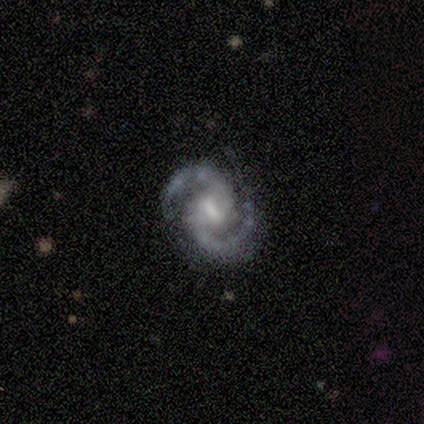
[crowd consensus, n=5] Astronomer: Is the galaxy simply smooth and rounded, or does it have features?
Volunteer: featured or disk — 100%.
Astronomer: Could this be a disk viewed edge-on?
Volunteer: no — 80%.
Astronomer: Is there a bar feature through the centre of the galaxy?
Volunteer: strong — 50%, tied with weak at 50%.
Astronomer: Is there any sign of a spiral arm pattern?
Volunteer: yes — 75%.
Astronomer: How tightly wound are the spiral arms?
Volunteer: medium — 100%.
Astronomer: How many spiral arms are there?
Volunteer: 2 — 100%.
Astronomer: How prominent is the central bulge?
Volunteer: moderate — 50%.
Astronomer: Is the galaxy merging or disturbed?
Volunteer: none — 100%.